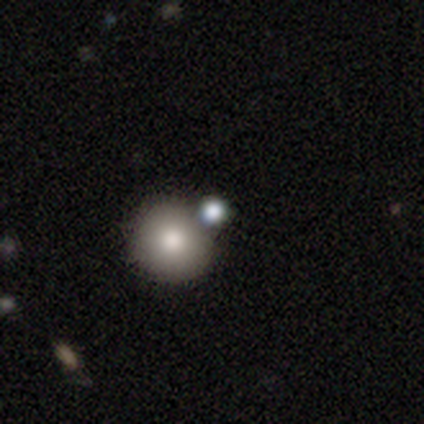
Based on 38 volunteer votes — smooth-or-featured: smooth: 63% | star or artifact: 26% | featured or disk: 11%
  how-rounded: round: 96% | in between: 4% | cigar-shaped: 0%
  merging: none: 68% | merger: 25% | minor disturbance: 7% | major disturbance: 0%